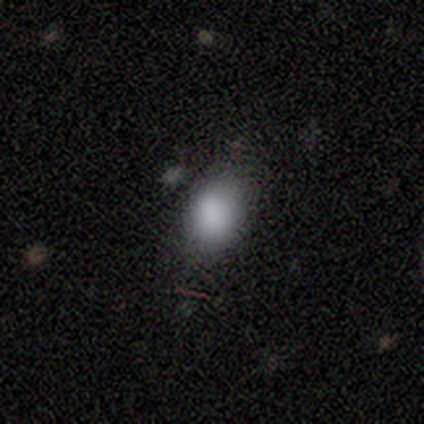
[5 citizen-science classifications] Q: Smooth or featured?
A: smooth (100%)
Q: How rounded?
A: in between (60%); runner-up: round (40%)
Q: Merging?
A: none (80%); runner-up: minor disturbance (20%)